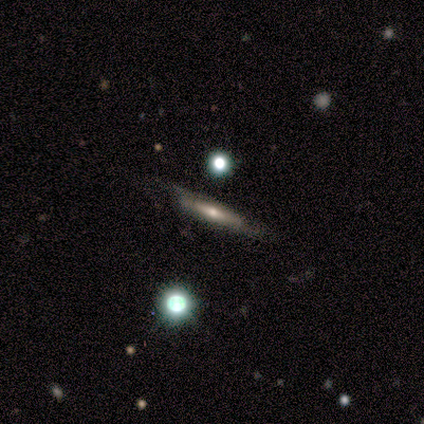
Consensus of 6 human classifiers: Smooth or featured? 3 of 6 (50%, tied with featured or disk) said smooth. How rounded? 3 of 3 (100%) said cigar-shaped. Merging? 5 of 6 (83%) said none.